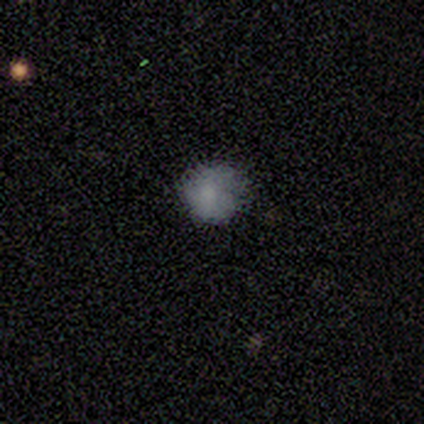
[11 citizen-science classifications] A smooth galaxy with no disk features (82%) that is round (89%).

Vote fractions:
- Smooth or featured? smooth: 82% / featured or disk: 18% / star or artifact: 0%
- How rounded? round: 89% / in between: 11% / cigar-shaped: 0%
- Merging? none: 82% / minor disturbance: 18% / major disturbance: 0% / merger: 0%